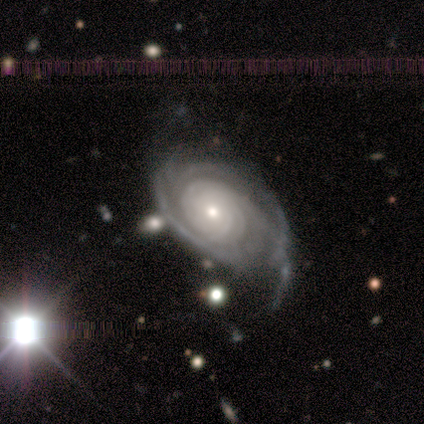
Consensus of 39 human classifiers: A featured or disk galaxy (92%) with no bar (83%), tight (83%) spiral arms (100%) and a small central bulge (66%). Merging: minor disturbance (42%).